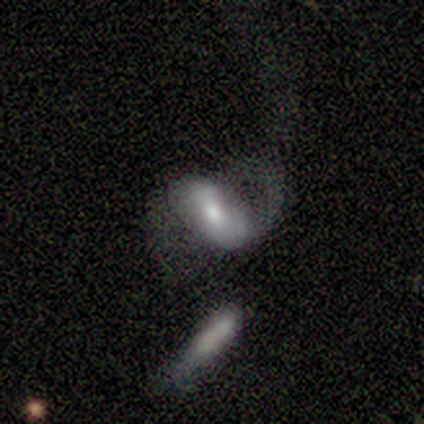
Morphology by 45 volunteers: Volunteers were most divided on "bar": weak: 41%, no: 38%, strong: 22%. More confident: edge-on disk — no (94%); spiral arm count — 2 (78%); smooth or featured — featured or disk (76%); spiral arms — yes (72%); bulge size — moderate (56%); merging — major disturbance (54%); spiral winding — medium (52%).